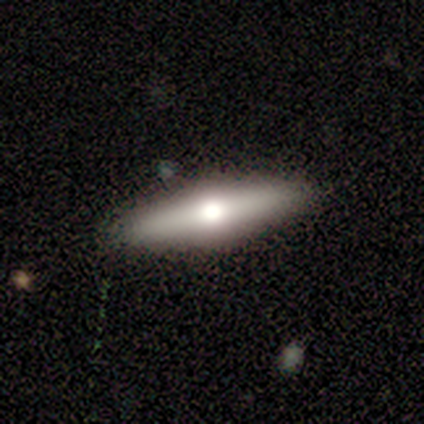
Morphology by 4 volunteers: A featured or disk galaxy (100%) viewed edge-on (100%) with a rounded central bulge (100%).

Vote fractions:
- Smooth or featured? featured or disk: 100% / smooth: 0% / star or artifact: 0%
- Edge-on disk? yes: 100% / no: 0%
- Edge-on bulge? rounded: 100% / boxy: 0% / none: 0%
- Merging? none: 100% / minor disturbance: 0% / major disturbance: 0% / merger: 0%